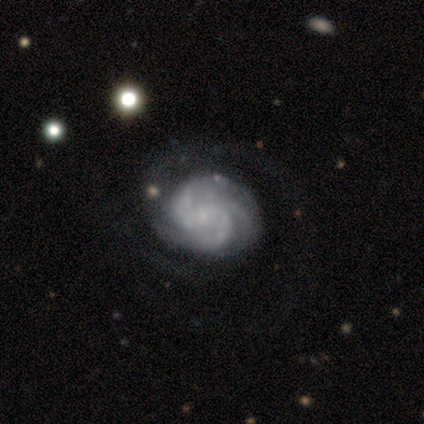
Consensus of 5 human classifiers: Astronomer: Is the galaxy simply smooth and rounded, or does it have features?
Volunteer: featured or disk — 100%.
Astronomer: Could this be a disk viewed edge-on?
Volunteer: no — 100%.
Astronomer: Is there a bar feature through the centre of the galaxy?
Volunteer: weak — 40%, tied with no at 40%.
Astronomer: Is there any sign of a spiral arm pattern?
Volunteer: yes — 100%.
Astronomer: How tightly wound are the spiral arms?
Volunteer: tight — 60%.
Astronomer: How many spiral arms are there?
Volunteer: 4 — 60%.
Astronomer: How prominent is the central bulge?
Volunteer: moderate — 40%, tied with none at 40%.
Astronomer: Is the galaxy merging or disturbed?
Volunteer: none — 60%.